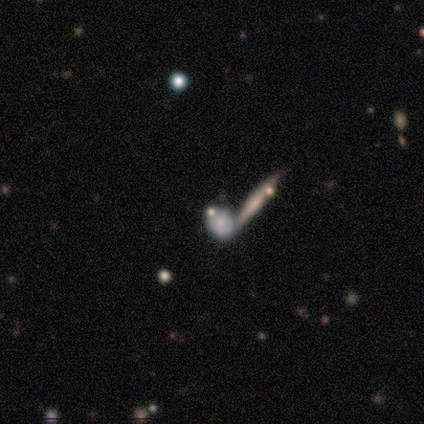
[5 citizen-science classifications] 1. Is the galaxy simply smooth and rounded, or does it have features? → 60% smooth, 40% featured or disk, 0% star or artifact.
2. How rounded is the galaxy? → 67% in between, 33% round, 0% cigar-shaped.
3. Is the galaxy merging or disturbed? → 60% none, 40% merger, 0% minor disturbance, 0% major disturbance.